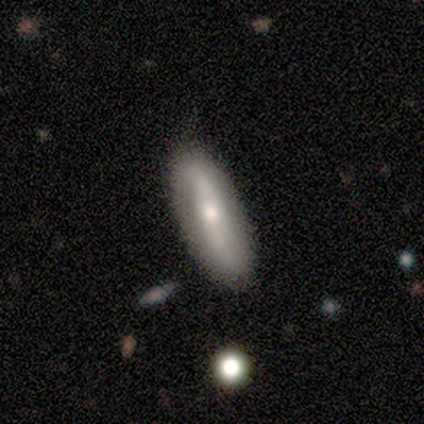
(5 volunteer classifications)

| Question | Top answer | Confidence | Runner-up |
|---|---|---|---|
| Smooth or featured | featured or disk | 60% | smooth (40%) |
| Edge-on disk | no | 67% | yes (33%) |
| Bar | strong | 50% | tied: weak (50%) |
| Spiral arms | yes | 50% | tied: no (50%) |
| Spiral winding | loose | 100% | — |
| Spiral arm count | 2 | 100% | — |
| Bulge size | small | 100% | — |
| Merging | none | 80% | minor disturbance (20%) |